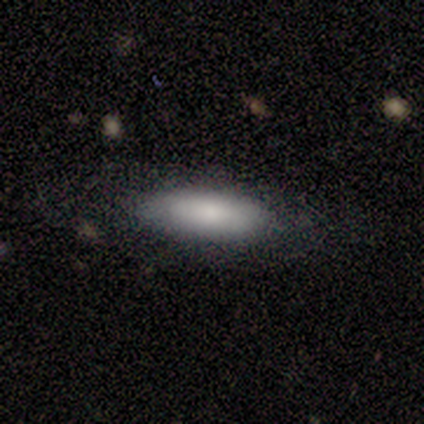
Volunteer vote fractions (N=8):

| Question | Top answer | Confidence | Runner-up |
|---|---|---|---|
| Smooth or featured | featured or disk | 62% | smooth (38%) |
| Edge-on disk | yes | 60% | no (40%) |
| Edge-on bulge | rounded | 67% | none (33%) |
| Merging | none | 75% | minor disturbance (25%) |